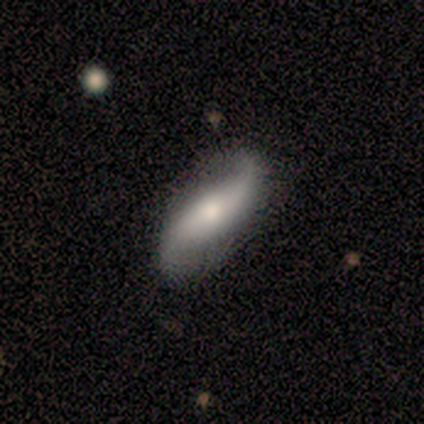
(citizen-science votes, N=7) smooth_or_featured: featured or disk (p=0.71) [alt: smooth p=0.29]
disk_edge_on: no (p=1.00)
bar: no (p=0.60) [alt: strong p=0.40]
has_spiral_arms: yes (p=1.00)
spiral_winding: loose (p=1.00)
spiral_arm_count: 2 (p=1.00)
bulge_size: moderate (p=0.40) [tied with: small p=0.40]
merging: none (p=0.86) [alt: minor disturbance p=0.14]